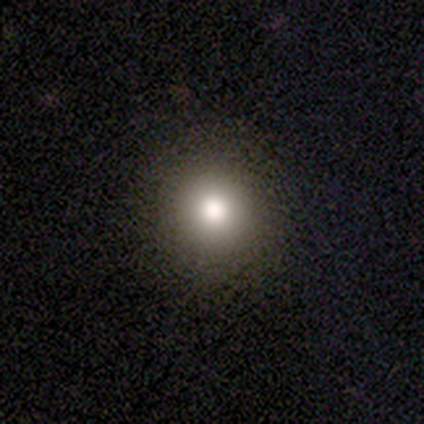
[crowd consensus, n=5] Morphology: type=smooth (100%); roundness=round (100%); merging=none (100%).